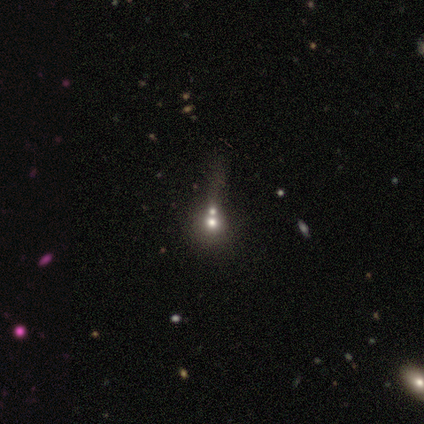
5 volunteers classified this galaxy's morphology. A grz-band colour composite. It shows a smooth galaxy with no disk features (40%, tied with star or artifact) that is round (50%, tied with in between). Merging: merger (67%).